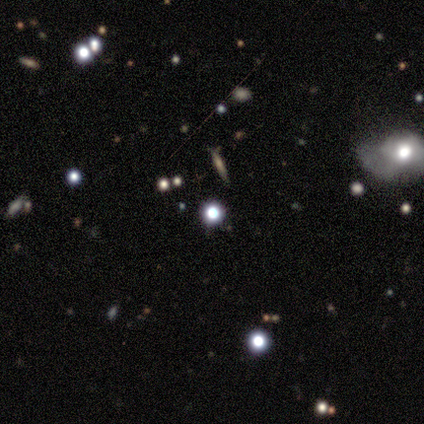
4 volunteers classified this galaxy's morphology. Smooth or featured?
  - star or artifact: 75% *
  - smooth: 25%
  - featured or disk: 0%